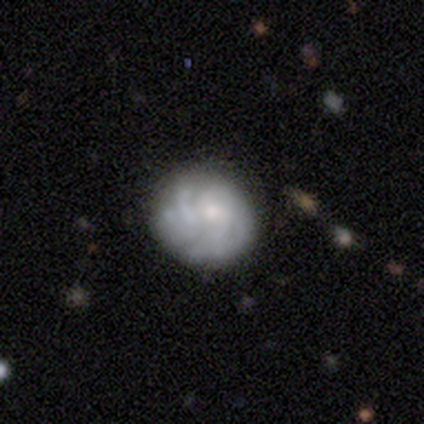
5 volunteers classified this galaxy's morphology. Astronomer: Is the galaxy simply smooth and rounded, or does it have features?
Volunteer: featured or disk — 80%.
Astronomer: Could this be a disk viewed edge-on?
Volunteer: no — 100%.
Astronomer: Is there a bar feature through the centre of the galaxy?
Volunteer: no — 100%.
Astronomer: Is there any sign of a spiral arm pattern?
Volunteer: yes — 100%.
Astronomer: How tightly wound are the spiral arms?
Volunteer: tight — 50%, tied with medium at 50%.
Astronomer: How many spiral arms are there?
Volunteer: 2 — 25%, tied with 3, more than 4 and can't tell at 25%.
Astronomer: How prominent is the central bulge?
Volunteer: moderate — 50%, tied with small at 50%.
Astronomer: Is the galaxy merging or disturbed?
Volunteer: none — 60% (runner-up: minor disturbance, 40%).